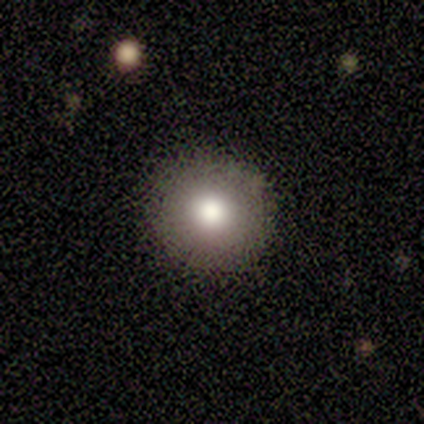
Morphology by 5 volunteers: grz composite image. It shows a smooth galaxy with no disk features (80%) that is round (100%). Merging: none (100%).